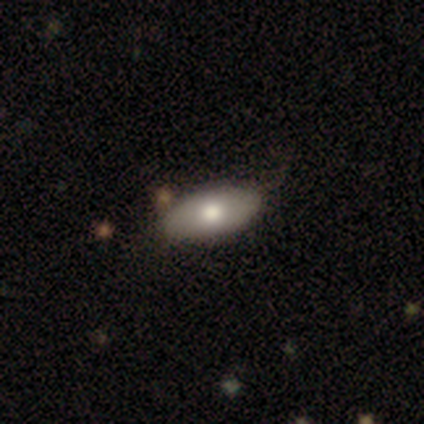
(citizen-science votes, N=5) Smooth or featured?
  - smooth: 40% * (tied)
  - featured or disk: 40% * (tied)
  - star or artifact: 20%
How rounded?
  - in between: 100% *
  - round: 0%
  - cigar-shaped: 0%
Merging?
  - none: 75% *
  - minor disturbance: 25%
  - major disturbance: 0%
  - merger: 0%